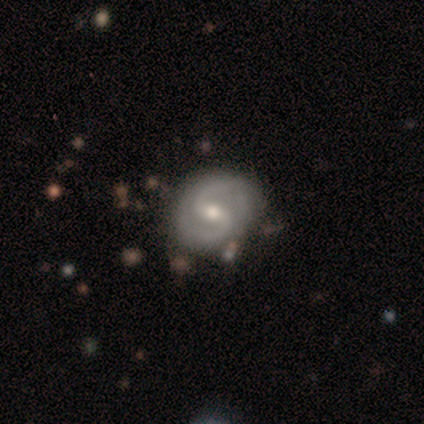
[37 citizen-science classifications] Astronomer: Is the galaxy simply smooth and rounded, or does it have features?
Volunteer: featured or disk — 89%.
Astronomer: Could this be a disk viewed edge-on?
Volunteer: no — 97%.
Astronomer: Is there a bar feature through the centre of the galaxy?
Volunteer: weak — 53% (runner-up: strong, 38%).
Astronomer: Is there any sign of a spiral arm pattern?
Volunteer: yes — 97%.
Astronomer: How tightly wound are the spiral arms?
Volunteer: medium — 71%.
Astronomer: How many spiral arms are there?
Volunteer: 2 — 97%.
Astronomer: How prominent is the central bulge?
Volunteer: moderate — 59%.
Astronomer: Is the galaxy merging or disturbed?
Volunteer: none — 77%.